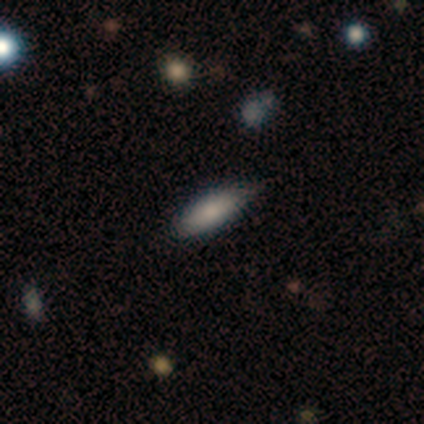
This is likely a smooth galaxy (67%). How rounded: possibly in between (50%, tied with cigar-shaped). Merging: clearly none (100%).